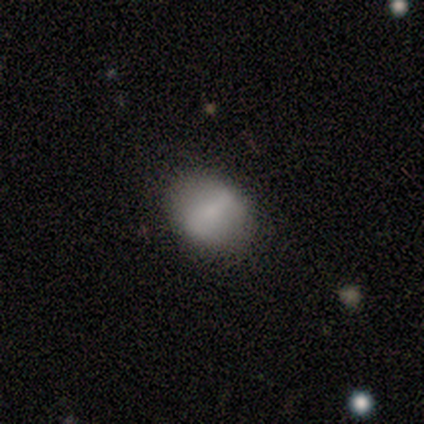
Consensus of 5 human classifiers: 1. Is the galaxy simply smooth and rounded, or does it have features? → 60% featured or disk, 40% smooth, 0% star or artifact.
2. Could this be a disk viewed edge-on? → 100% no, 0% yes.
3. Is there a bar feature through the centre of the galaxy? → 67% weak, 33% strong, 0% no.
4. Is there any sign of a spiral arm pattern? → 67% no, 33% yes.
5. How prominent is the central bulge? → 33% moderate (tied), 33% small (tied), 33% none (tied), 0% dominant, 0% large.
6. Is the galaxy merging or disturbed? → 80% none, 20% minor disturbance, 0% major disturbance, 0% merger.